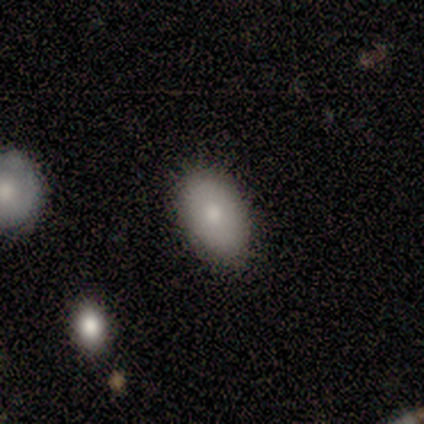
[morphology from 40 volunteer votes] smooth-or-featured: smooth: 82% | featured or disk: 12% | star or artifact: 5%
  how-rounded: in between: 100% | round: 0% | cigar-shaped: 0%
  merging: none: 87% | minor disturbance: 11% | merger: 3% | major disturbance: 0%